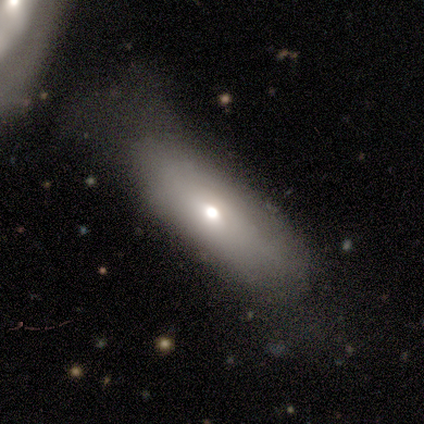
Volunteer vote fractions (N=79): smooth_or_featured: smooth (p=0.77) [alt: featured or disk p=0.19]
how_rounded: in between (p=0.77) [alt: cigar-shaped p=0.23]
merging: none (p=0.33) [alt: major disturbance p=0.12]